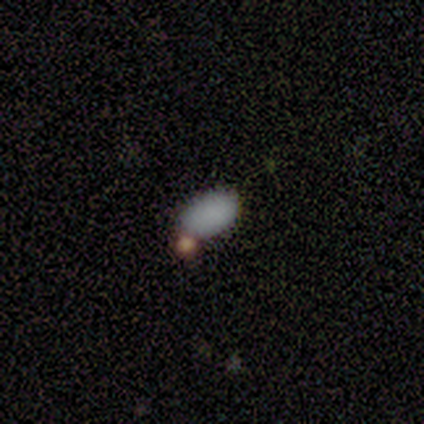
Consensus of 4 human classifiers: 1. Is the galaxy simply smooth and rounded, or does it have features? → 75% smooth, 25% star or artifact, 0% featured or disk.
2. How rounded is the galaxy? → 100% in between, 0% round, 0% cigar-shaped.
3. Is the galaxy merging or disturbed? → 67% merger, 33% none, 0% minor disturbance, 0% major disturbance.